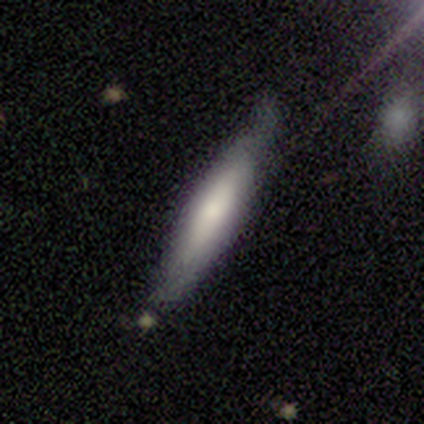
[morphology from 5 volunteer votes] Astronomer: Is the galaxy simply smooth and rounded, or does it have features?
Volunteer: smooth — 80%.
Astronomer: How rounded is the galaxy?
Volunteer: cigar-shaped — 75%.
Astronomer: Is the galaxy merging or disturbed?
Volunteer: minor disturbance — 60% (runner-up: none, 40%).